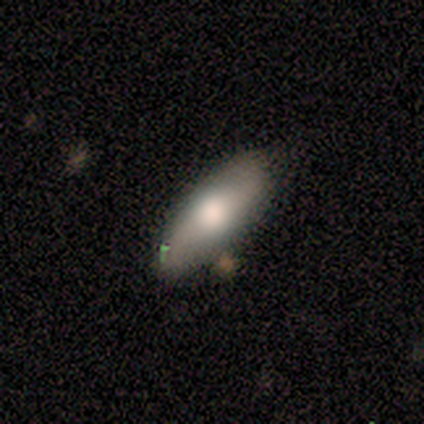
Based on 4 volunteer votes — Smooth or featured: smooth — 75% (featured or disk — 25%)
How rounded: in between — 100%
Merging: none — 100%